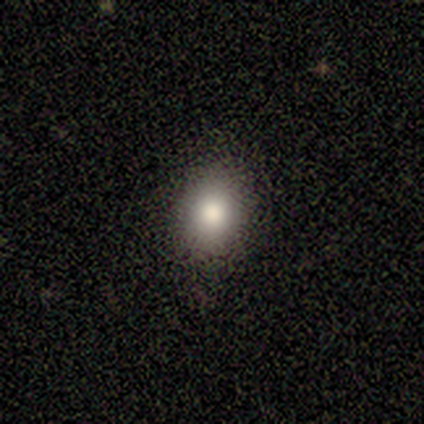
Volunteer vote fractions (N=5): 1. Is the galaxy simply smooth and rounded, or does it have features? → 60% smooth, 40% star or artifact, 0% featured or disk.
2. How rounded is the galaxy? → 100% in between, 0% round, 0% cigar-shaped.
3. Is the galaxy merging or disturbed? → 100% none, 0% minor disturbance, 0% major disturbance, 0% merger.